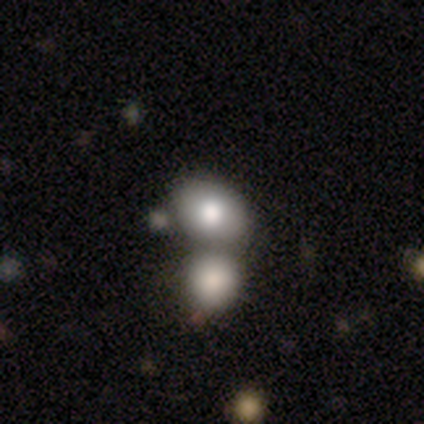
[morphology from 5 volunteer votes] Smooth or featured? smooth (80%)
How rounded? round (50%, tied with in between)
Merging? merger (80%)